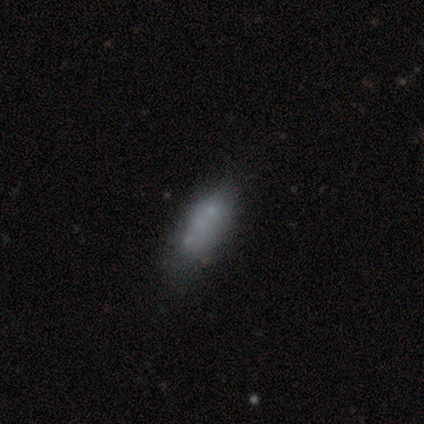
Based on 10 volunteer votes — Smooth or featured? 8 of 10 (80%) said smooth. How rounded? 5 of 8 (62%) said in between. Merging? 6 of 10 (60%) said none.